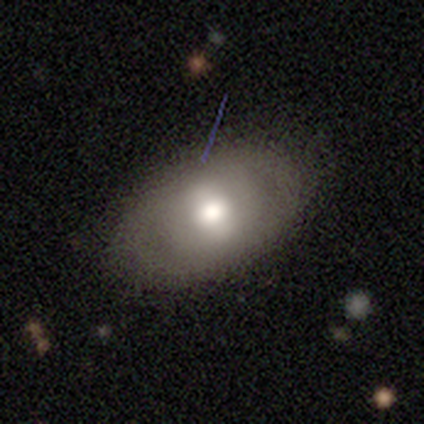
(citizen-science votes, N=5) Smooth or featured: smooth — 40% (tied with star or artifact — 40%)
How rounded: round — 50% (tied with in between — 50%)
Merging: none — 67% (minor disturbance — 33%)